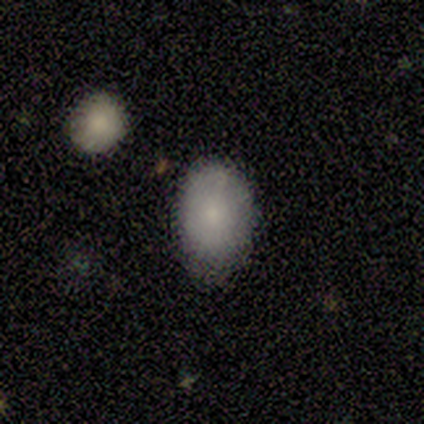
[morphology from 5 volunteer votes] This is clearly a smooth galaxy (80%). How rounded: likely in between (75%). Merging: clearly none (100%).